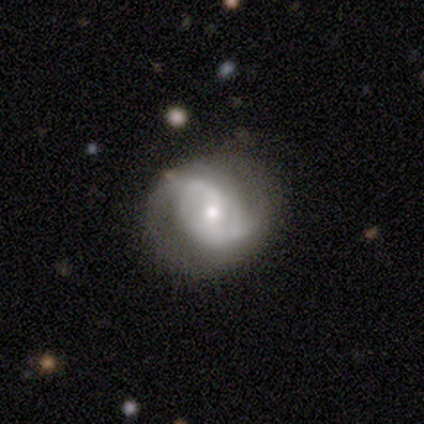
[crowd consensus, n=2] smooth_or_featured: featured or disk (p=1.00)
disk_edge_on: no (p=1.00)
bar: weak (p=0.50) [tied with: no p=0.50]
has_spiral_arms: yes (p=1.00)
spiral_winding: medium (p=0.50) [tied with: loose p=0.50]
spiral_arm_count: 2 (p=1.00)
bulge_size: moderate (p=0.50) [tied with: small p=0.50]
merging: none (p=1.00)